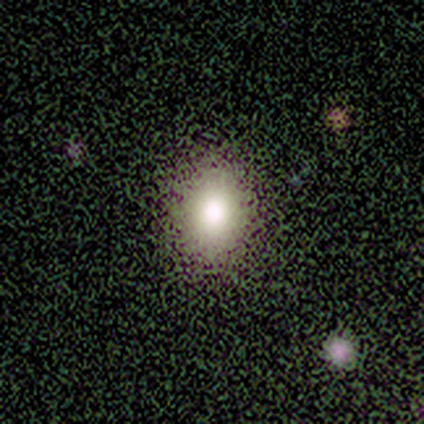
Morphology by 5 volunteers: type=smooth (80%); roundness=round (50%, tied with in between); merging=none (100%).